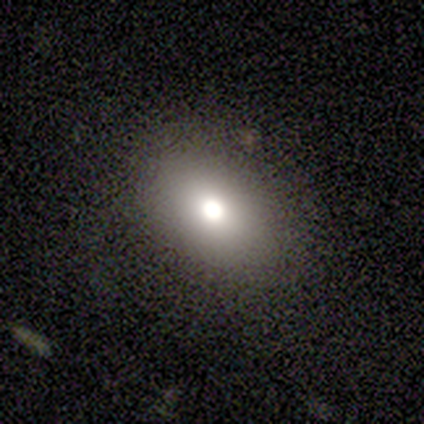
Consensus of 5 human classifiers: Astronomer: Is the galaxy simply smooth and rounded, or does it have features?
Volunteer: smooth — 60% (runner-up: featured or disk, 40%).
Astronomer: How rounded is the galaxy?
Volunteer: in between — 100%.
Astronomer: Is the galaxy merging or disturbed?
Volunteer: none — 60% (runner-up: minor disturbance, 40%).